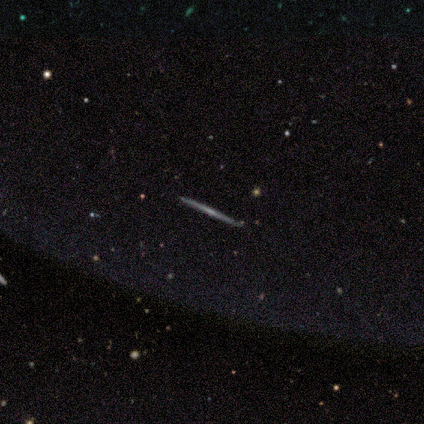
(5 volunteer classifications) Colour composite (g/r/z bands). It shows a featured or disk galaxy (80%) viewed edge-on (100%) with no central bulge (75%). Merging: none (100%).